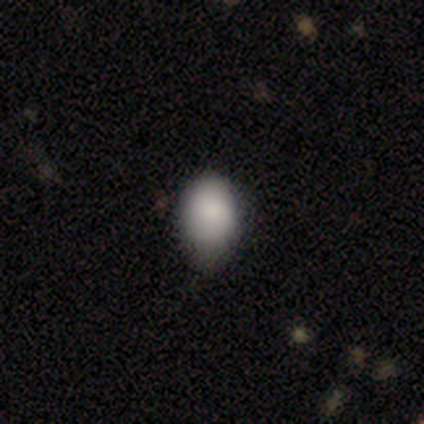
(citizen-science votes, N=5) Overall: smooth (100%). How rounded: in between (80%). Merging: none (60%; minor disturbance 40%).